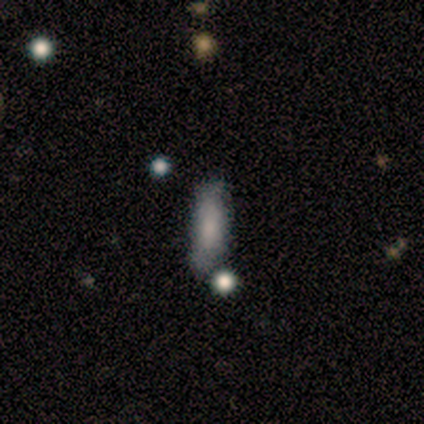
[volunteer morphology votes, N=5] A smooth galaxy with no disk features (80%) that is in between round and cigar-shaped (50%, tied with cigar-shaped).

Vote fractions:
- Smooth or featured? smooth: 80% / featured or disk: 20% / star or artifact: 0%
- How rounded? in between: 50% (tied) / cigar-shaped: 50% (tied) / round: 0%
- Merging? none: 60% / minor disturbance: 20% / merger: 20% / major disturbance: 0%